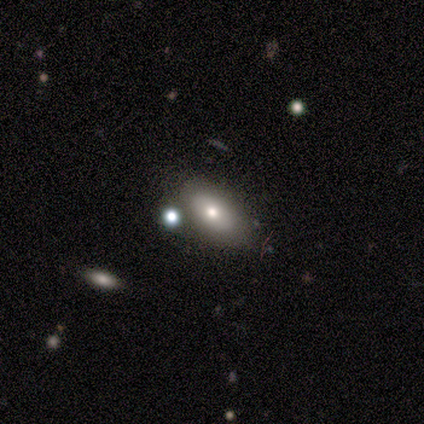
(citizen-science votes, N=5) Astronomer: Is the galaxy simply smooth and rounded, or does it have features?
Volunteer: smooth — 80%.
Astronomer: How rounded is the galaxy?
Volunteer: in between — 100%.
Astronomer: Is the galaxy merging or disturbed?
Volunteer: none — 100%.